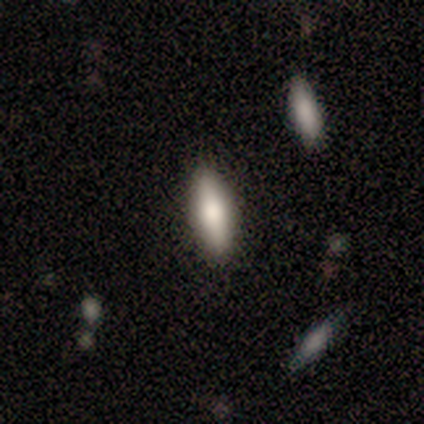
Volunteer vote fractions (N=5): Overall: smooth (60%; featured or disk 40%). How rounded: in between (67%; cigar-shaped 33%). Merging: none (100%).